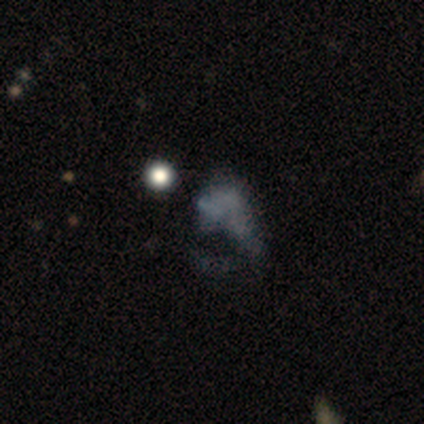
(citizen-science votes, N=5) Smooth or featured? 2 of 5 (40%, tied with star or artifact) said featured or disk. Edge-on disk? 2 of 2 (100%) said no. Bar? 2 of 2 (100%) said no. Spiral arms? 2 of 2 (100%) said no. Bulge size? 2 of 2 (100%) said none. Merging? 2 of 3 (67%) said minor disturbance.